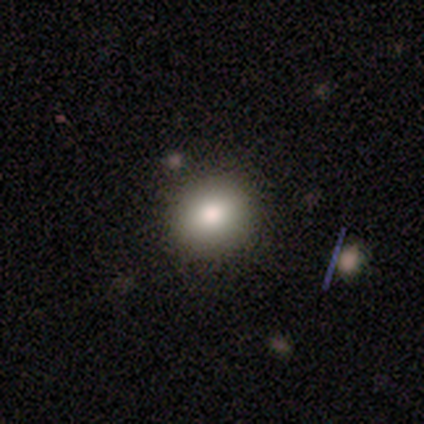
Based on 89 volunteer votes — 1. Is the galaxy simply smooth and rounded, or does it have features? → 83% smooth, 9% star or artifact, 8% featured or disk.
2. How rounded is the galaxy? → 80% round, 20% in between, 0% cigar-shaped.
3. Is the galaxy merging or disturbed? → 91% none, 9% minor disturbance, 0% major disturbance, 0% merger.